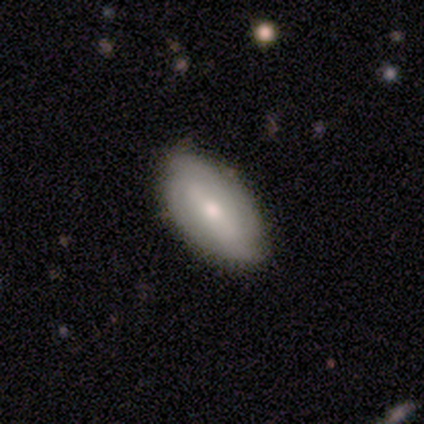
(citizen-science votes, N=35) Overall: featured or disk (51%; smooth 43%). Edge-on disk: no (100%). Bar: strong (44%, tied with weak). Spiral arms: no (56%; yes 44%). Bulge size: moderate (44%; small 39%). Merging: none (73%).